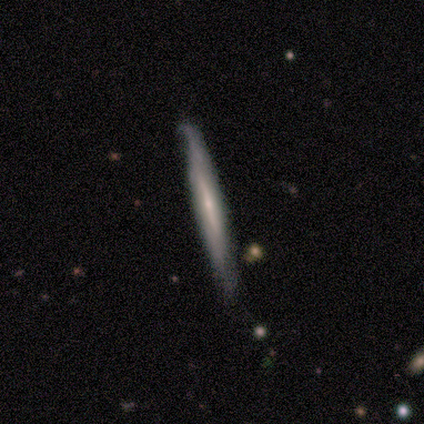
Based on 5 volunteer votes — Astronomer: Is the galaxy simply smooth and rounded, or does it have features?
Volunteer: featured or disk — 60% (runner-up: smooth, 40%).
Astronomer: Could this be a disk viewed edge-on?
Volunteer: yes — 100%.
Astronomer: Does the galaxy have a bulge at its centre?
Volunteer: rounded — 67%.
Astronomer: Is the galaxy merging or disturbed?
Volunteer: minor disturbance — 60% (runner-up: none, 40%).